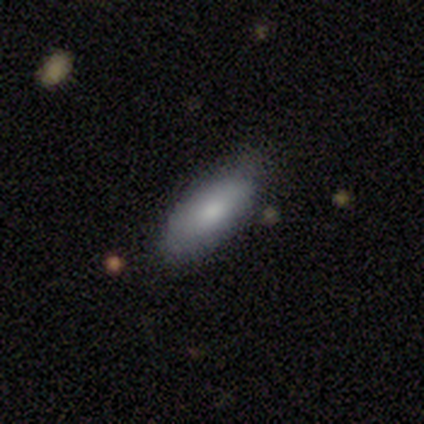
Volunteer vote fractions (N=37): Smooth or featured?
  - smooth: 73% *
  - featured or disk: 16%
  - star or artifact: 11%
How rounded?
  - in between: 78% *
  - cigar-shaped: 19%
  - round: 4%
Merging?
  - none: 85% *
  - minor disturbance: 12%
  - major disturbance: 3%
  - merger: 0%